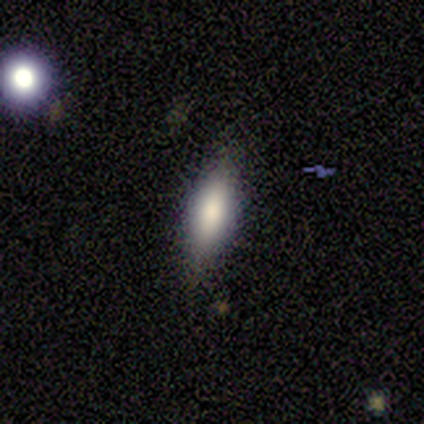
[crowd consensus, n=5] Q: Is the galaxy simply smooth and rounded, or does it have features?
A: smooth — 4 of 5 (80%).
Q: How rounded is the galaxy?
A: in between — 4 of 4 (100%).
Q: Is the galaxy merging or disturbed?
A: none — 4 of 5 (80%).